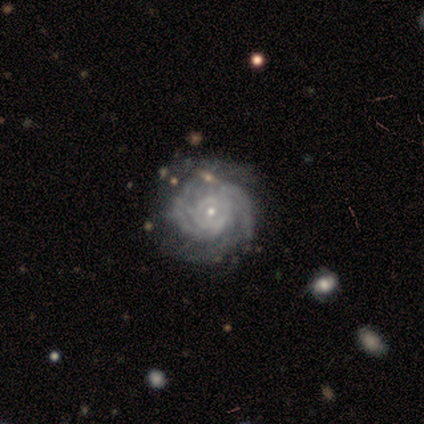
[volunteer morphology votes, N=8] Smooth or featured: featured or disk — 100%
Edge-on disk: no — 100%
Bar: no — 88% (weak — 12%)
Spiral arms: yes — 100%
Spiral winding: tight — 38% (tied with medium — 38%)
Spiral arm count: 2 — 38% (3 — 25%)
Bulge size: small — 100%
Merging: none — 100%